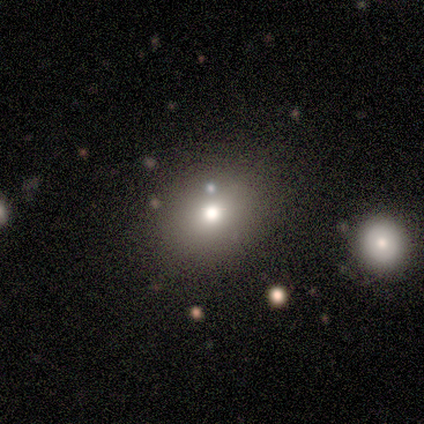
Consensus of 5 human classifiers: smooth 60%, star or artifact 40%, featured or disk 0%. Down the decision tree: how rounded — round (100%); merging — none (100%).